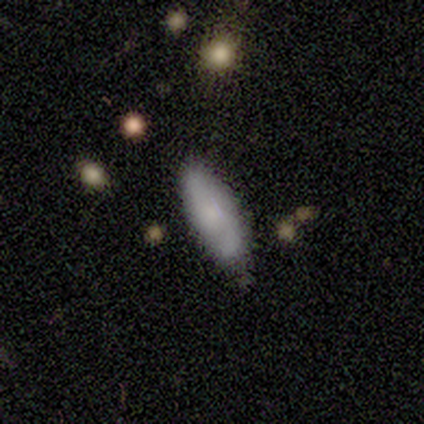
Morphology: type=smooth (60%); roundness=cigar-shaped (67%); merging=none (100%).